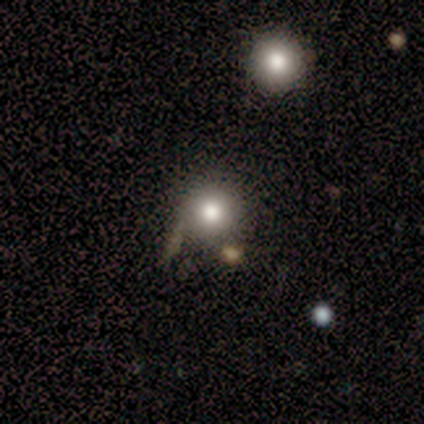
smooth 60%, featured or disk 20%, star or artifact 20%. Down the decision tree: how rounded — round (100%); merging — none (75%).